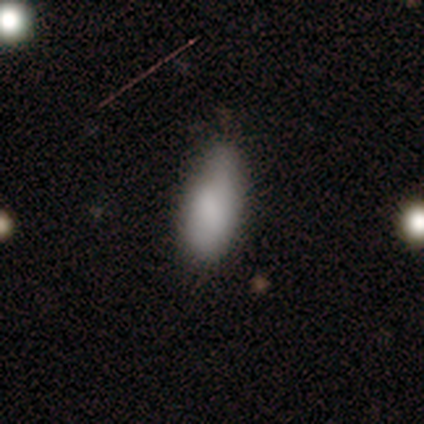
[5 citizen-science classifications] smooth-or-featured: smooth: 60% | featured or disk: 40% | star or artifact: 0%
  how-rounded: in between: 100% | round: 0% | cigar-shaped: 0%
  merging: minor disturbance: 60% | none: 40% | major disturbance: 0% | merger: 0%